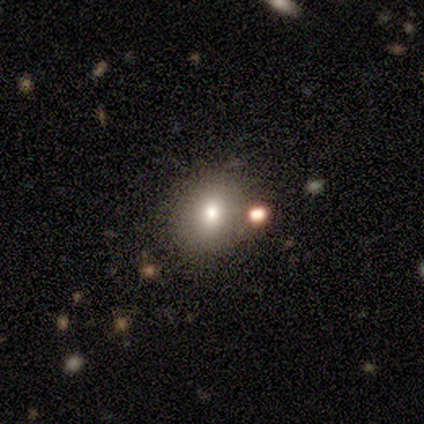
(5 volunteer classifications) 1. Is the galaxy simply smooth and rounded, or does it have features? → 60% smooth, 20% featured or disk, 20% star or artifact.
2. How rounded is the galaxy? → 67% round, 33% in between, 0% cigar-shaped.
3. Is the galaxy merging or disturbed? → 100% none, 0% minor disturbance, 0% major disturbance, 0% merger.